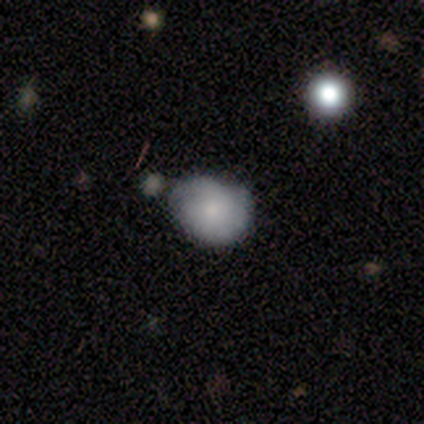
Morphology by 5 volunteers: smooth_or_featured: smooth (p=0.60) [alt: featured or disk p=0.40]
how_rounded: in between (p=0.67) [alt: round p=0.33]
merging: minor disturbance (p=0.60) [alt: none p=0.20]